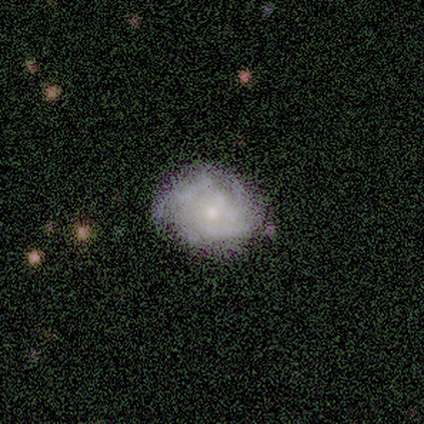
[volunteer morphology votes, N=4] A smooth galaxy with no disk features (75%) that is in between round and cigar-shaped (67%). Merging: none (50%, tied with minor disturbance).